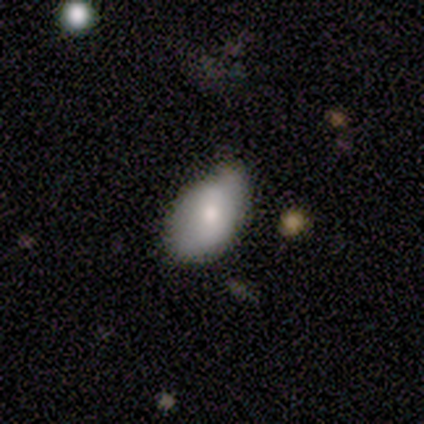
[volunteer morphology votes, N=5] type=smooth (80%); roundness=in between (100%); merging=minor disturbance (60%).